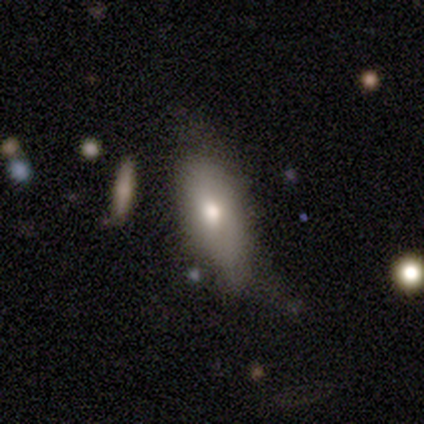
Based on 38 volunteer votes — This appears to be a smooth galaxy with no disk features (66%) that is in between round and cigar-shaped (84%). Merging: none (50%).